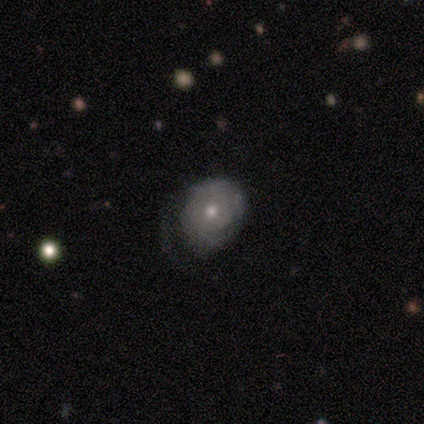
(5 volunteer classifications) smooth-or-featured: featured or disk: 80% | smooth: 20% | star or artifact: 0%
  disk-edge-on: no: 100% | yes: 0%
    bar: no: 100% | strong: 0% | weak: 0%
    has-spiral-arms: yes: 50% (tied) | no: 50% (tied)
      spiral-winding: tight: 50% (tied) | medium: 50% (tied) | loose: 0%
      spiral-arm-count: 2: 100% | 1: 0% | 3: 0% | 4: 0% | more than 4: 0% | can't tell: 0%
    bulge-size: moderate: 50% (tied) | small: 50% (tied) | dominant: 0% | large: 0% | none: 0%
  merging: none: 40% (tied) | minor disturbance: 40% (tied) | major disturbance: 20% | merger: 0%